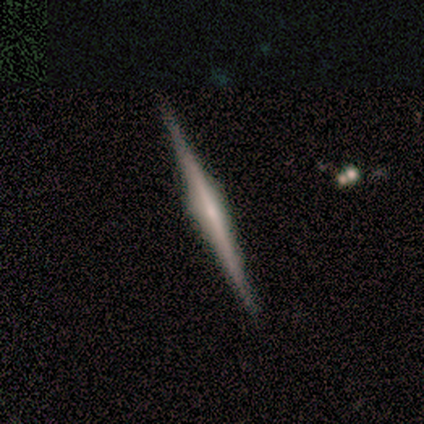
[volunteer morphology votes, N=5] type=featured or disk (80%); edge-on=yes (100%); edge-on bulge=none (50%); merging=none (100%).